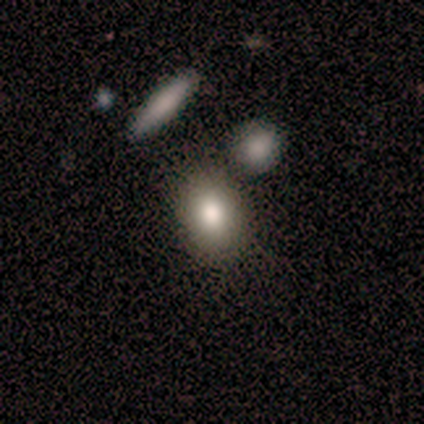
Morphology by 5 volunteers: Volunteers were most divided on "merging": none: 75%, major disturbance: 25%, minor disturbance: 0%, merger: 0%. More confident: how rounded — in between (100%); smooth or featured — smooth (80%).